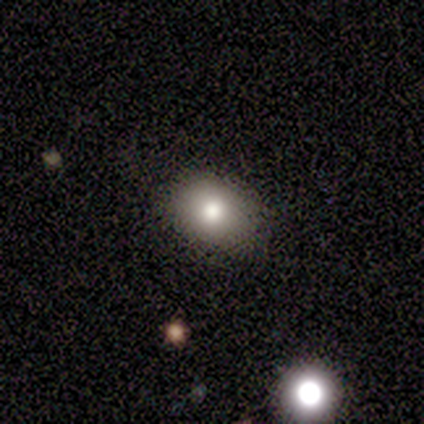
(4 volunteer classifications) Smooth or featured? smooth (75%)
How rounded? in between (67%)
Merging? none (75%)